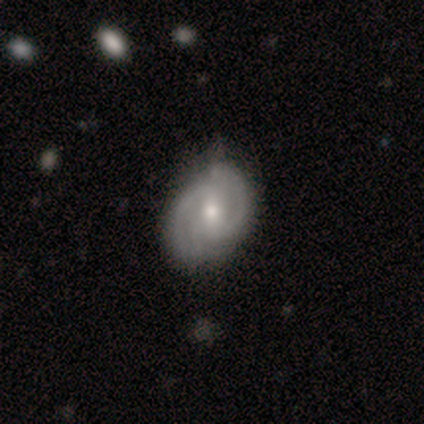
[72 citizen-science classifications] featured or disk 82%, smooth 11%, star or artifact 7%. Down the decision tree: edge-on disk — no (97%); bar — weak (51%); spiral arms — yes (93%); spiral arm count — 2 (66%); spiral winding — tight (51%); bulge size — moderate (65%); merging — none (58%).